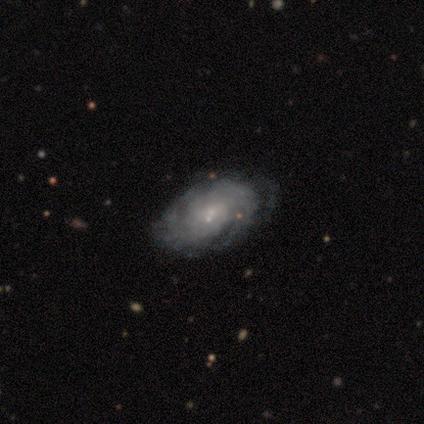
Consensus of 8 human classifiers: This appears to be a featured or disk galaxy (88%) with no bar (57%), tight (83%) spiral arms (86%) and a small central bulge (100%). Merging: none (50%).